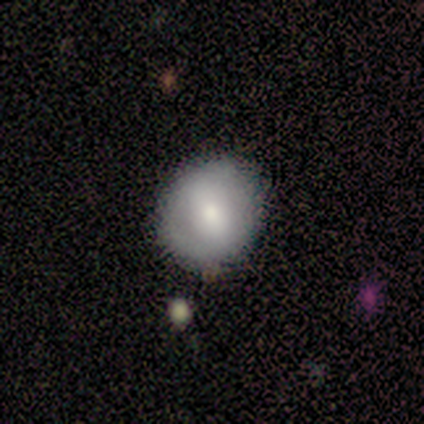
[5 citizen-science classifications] A smooth galaxy with no disk features (60%) that is in between round and cigar-shaped (67%). Merging: none (100%).